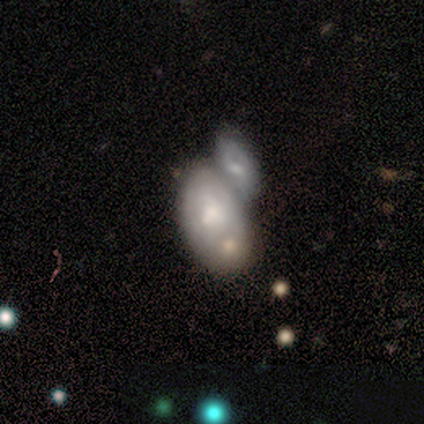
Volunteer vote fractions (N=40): Smooth or featured? 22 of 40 (55%) said featured or disk. Edge-on disk? 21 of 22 (95%) said no. Bar? 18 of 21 (86%) said no. Spiral arms? 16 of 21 (76%) said no. Bulge size? 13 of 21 (62%) said moderate. Merging? 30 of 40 (75%) said merger.